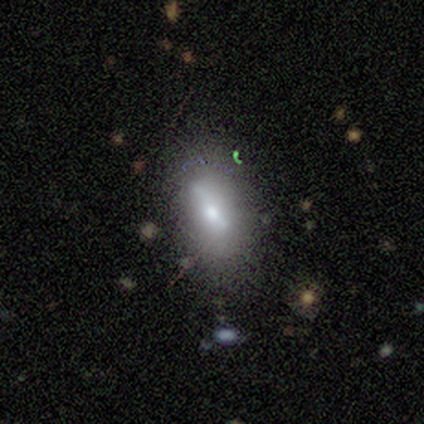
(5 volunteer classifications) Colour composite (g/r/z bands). It shows a featured or disk galaxy (60%) with no bar (100%), no spiral arms (100%) and a moderate central bulge (100%). Merging: major disturbance (60%).